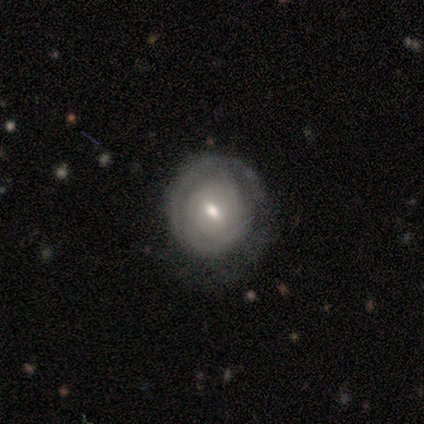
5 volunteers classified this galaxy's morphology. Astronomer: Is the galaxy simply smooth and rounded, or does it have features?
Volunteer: featured or disk — 80%.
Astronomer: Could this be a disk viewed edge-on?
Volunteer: no — 100%.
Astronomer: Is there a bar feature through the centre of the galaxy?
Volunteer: weak — 75%.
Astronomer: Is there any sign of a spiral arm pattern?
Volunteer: yes — 75%.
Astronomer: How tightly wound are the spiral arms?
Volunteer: tight — 100%.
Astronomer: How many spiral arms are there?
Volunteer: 1 — 67%.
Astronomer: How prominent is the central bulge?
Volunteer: moderate — 50%, tied with small at 50%.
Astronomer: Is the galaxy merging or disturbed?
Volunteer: none — 80%.